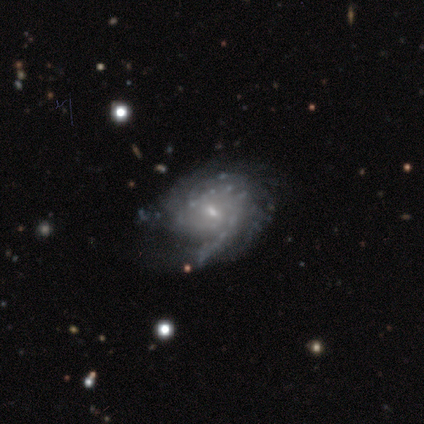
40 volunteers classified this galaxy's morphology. Overall: featured or disk (82%). Edge-on disk: no (97%). Bar: no (56%; weak 38%). Spiral arms: yes (84%). Spiral arm count: can't tell (37%; 2 22%). Spiral winding: tight (63%; medium 26%). Bulge size: small (91%). Merging: none (63%).